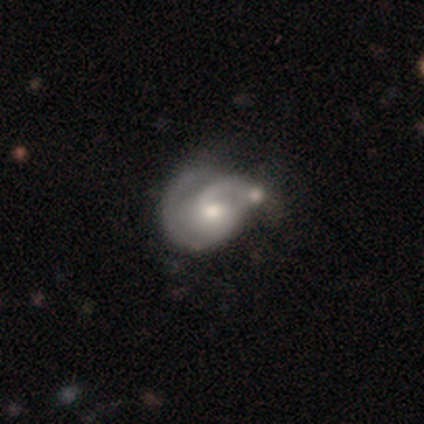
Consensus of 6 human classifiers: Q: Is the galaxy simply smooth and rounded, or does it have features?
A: featured or disk — 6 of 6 (100%).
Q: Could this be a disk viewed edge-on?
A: no — 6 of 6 (100%).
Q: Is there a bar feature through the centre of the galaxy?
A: no — 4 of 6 (67%).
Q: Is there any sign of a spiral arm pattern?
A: yes — 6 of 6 (100%).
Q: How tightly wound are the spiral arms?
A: medium — 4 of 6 (67%).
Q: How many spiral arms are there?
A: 2 — 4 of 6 (67%).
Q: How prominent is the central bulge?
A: moderate — 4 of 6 (67%).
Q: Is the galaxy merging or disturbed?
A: none — 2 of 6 (33%, tied with minor disturbance and merger).